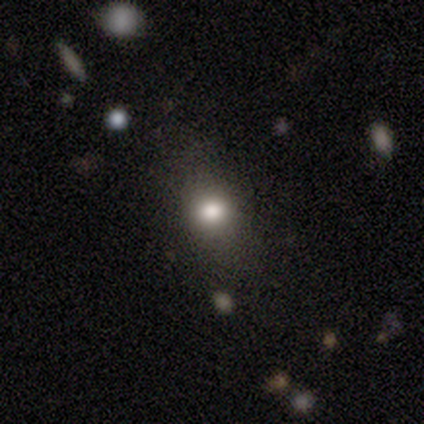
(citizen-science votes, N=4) Smooth or featured? smooth (100%)
How rounded? in between (100%)
Merging? none (75%)